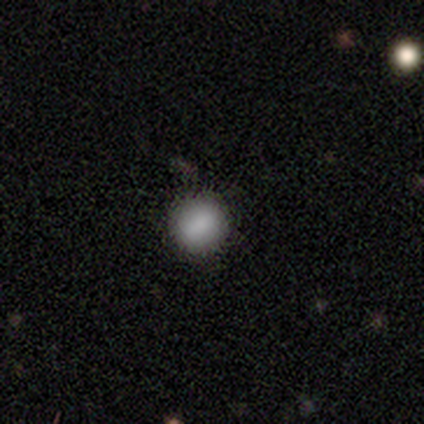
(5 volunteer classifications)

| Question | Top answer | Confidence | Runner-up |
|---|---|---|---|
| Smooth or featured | smooth | 100% | — |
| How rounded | round | 80% | in between (20%) |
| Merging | none | 100% | — |